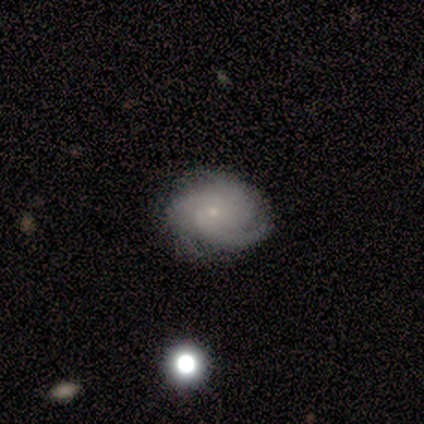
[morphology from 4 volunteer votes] Smooth or featured? featured or disk (75%)
Edge-on disk? no (67%)
Bar? no (100%)
Spiral arms? yes (100%)
Spiral winding? tight (50%, tied with medium)
Spiral arm count? 3 (50%, tied with can't tell)
Bulge size? small (100%)
Merging? none (67%)